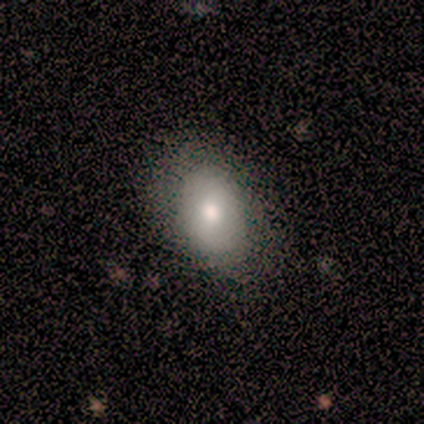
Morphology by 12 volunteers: Smooth or featured: smooth — 100%
How rounded: in between — 83% (round — 8%)
Merging: none — 50% (tied with minor disturbance — 50%)